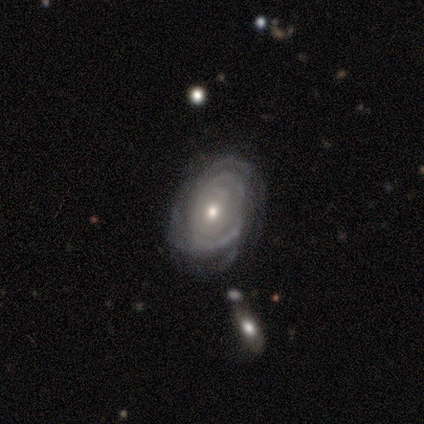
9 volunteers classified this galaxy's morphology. Volunteers were most divided on "spiral arm count": can't tell: 60%, 3: 20%, 4: 20%, 1: 0%, 2: 0%, more than 4: 0%. More confident: edge-on disk — no (100%); bar — no (100%); spiral winding — tight (80%); smooth or featured — featured or disk (78%); merging — none (75%); spiral arms — yes (71%); bulge size — moderate (71%).